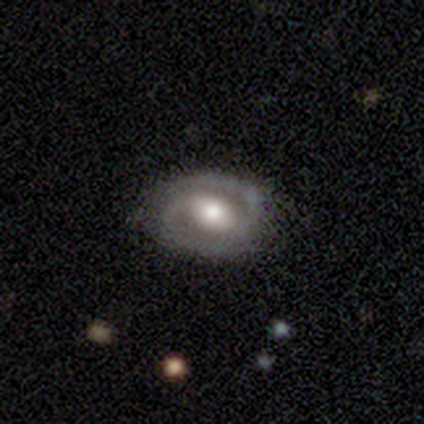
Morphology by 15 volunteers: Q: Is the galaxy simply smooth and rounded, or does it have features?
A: featured or disk — 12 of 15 (80%).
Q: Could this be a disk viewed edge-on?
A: no — 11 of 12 (92%).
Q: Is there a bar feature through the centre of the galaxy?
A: weak — 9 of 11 (82%).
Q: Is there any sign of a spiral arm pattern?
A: yes — 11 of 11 (100%).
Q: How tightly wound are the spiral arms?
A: tight — 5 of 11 (45%).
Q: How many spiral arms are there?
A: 2 — 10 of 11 (91%).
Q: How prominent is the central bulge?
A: moderate — 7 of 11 (64%).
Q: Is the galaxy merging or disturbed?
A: none — 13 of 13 (100%).